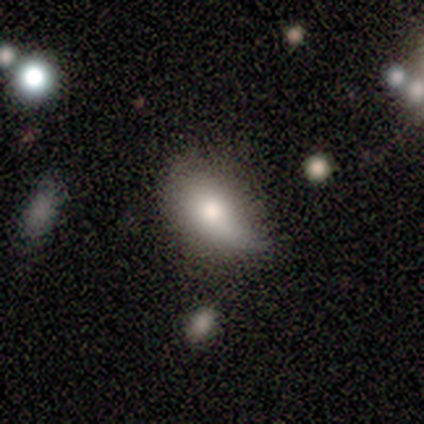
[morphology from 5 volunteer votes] smooth_or_featured: smooth (p=0.80) [alt: featured or disk p=0.20]
how_rounded: in between (p=0.75) [alt: cigar-shaped p=0.25]
merging: minor disturbance (p=1.00)